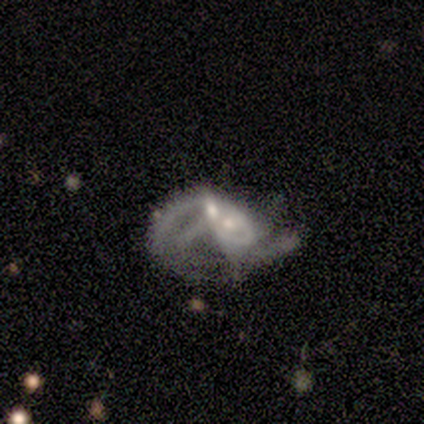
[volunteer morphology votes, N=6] Q: Smooth or featured?
A: featured or disk (100%)
Q: Edge-on disk?
A: no (83%); runner-up: yes (17%)
Q: Bar?
A: no (80%); runner-up: weak (20%)
Q: Spiral arms?
A: no (80%); runner-up: yes (20%)
Q: Bulge size?
A: moderate (60%); runner-up: small (40%)
Q: Merging?
A: major disturbance (33%); tied with: merger (33%)